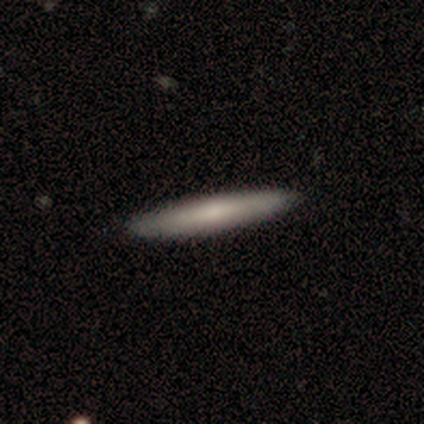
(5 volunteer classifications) smooth_or_featured: featured or disk (p=0.60) [alt: smooth p=0.40]
disk_edge_on: yes (p=1.00)
edge_on_bulge: rounded (p=0.67) [alt: none p=0.33]
merging: none (p=0.80) [alt: minor disturbance p=0.20]